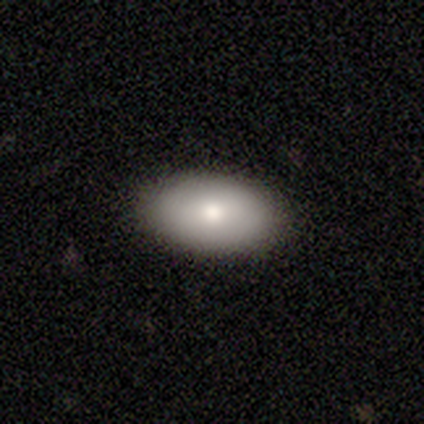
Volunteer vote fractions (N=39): A smooth galaxy with no disk features (74%) that is in between round and cigar-shaped (93%). Merging: none (92%).